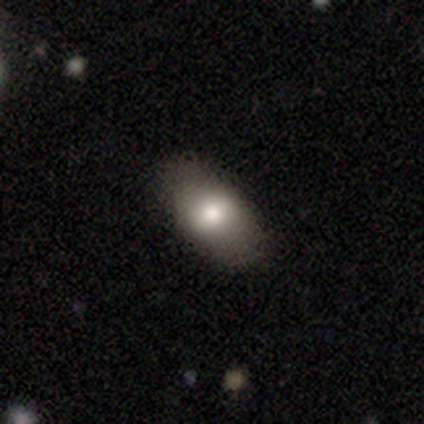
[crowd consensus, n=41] This appears to be a smooth galaxy with no disk features (85%) that is in between round and cigar-shaped (97%). Merging: none (76%).